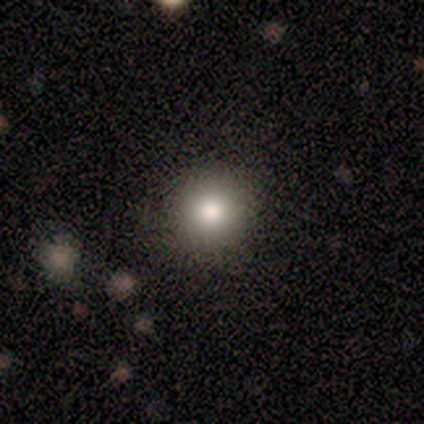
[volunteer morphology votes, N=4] Smooth or featured: smooth — 75% (featured or disk — 25%)
How rounded: round — 100%
Merging: none — 100%